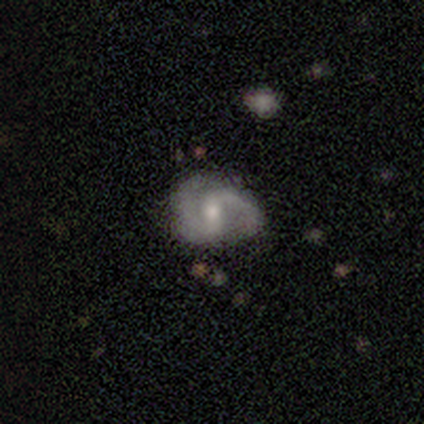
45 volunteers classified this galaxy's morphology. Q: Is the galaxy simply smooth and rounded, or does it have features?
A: featured or disk — 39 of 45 (87%).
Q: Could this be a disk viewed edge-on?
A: no — 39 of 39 (100%).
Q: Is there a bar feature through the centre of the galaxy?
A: weak — 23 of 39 (59%).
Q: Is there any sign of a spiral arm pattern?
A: yes — 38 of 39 (97%).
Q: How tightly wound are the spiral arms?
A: medium — 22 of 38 (58%).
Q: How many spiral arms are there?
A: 2 — 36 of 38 (95%).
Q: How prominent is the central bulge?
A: moderate — 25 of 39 (64%).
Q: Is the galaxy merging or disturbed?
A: none — 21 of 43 (49%).